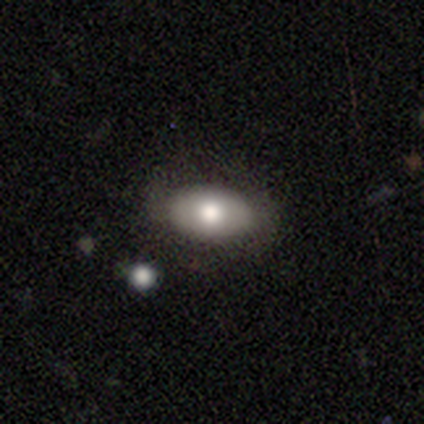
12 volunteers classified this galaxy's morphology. Overall: smooth (92%). How rounded: in between (100%). Merging: none (64%; minor disturbance 36%).